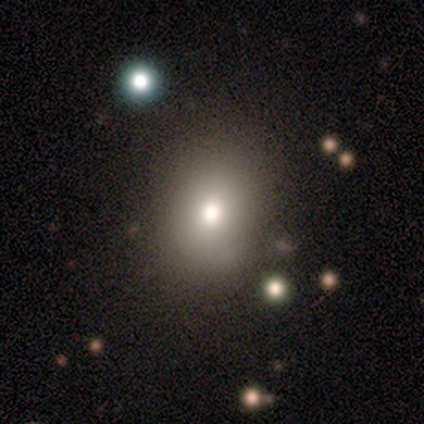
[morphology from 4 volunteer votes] Volunteers were most divided on "how rounded": in between: 75%, round: 25%, cigar-shaped: 0%. More confident: smooth or featured — smooth (100%); merging — none (100%).